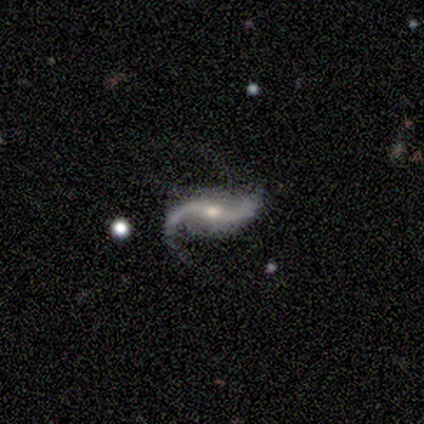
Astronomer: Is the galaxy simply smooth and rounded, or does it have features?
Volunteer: featured or disk — 100%.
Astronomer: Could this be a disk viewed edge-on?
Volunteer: no — 100%.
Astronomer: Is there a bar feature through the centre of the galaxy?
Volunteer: weak — 50%, tied with no at 50%.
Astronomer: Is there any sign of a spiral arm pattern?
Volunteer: yes — 100%.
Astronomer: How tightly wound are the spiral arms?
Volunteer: medium — 50%, tied with loose at 50%.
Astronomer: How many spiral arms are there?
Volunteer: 2 — 100%.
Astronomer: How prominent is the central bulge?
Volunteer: moderate — 75%.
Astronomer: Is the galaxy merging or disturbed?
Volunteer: none — 50%.